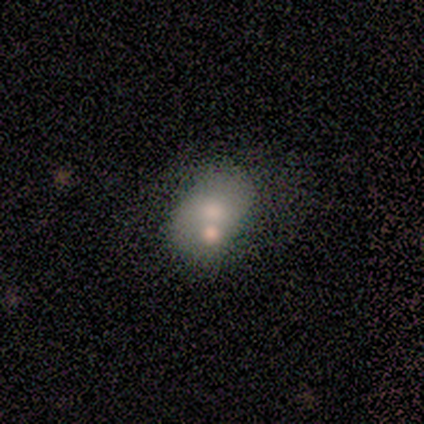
Smooth or featured? 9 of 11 (82%) said smooth. How rounded? 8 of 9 (89%) said in between. Merging? 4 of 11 (36%) said merger.